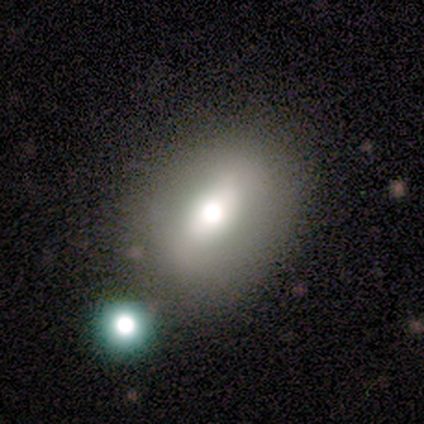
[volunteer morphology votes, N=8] smooth_or_featured: smooth (p=1.00)
how_rounded: in between (p=0.62) [alt: round p=0.38]
merging: none (p=0.75) [alt: minor disturbance p=0.25]